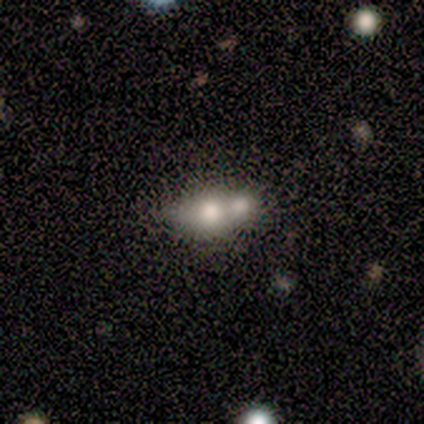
Volunteers were most divided on "smooth or featured": smooth: 60%, featured or disk: 40%, star or artifact: 0%. More confident: merging — merger (80%); how rounded — in between (67%).